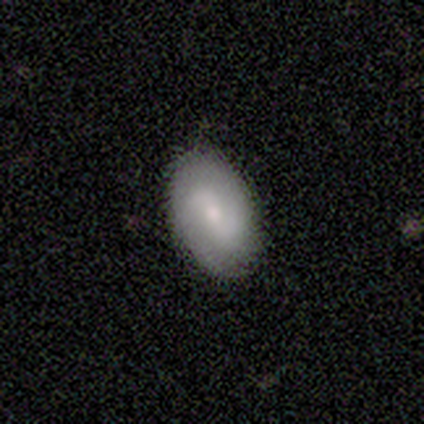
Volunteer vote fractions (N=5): Overall: smooth (60%; featured or disk 40%). How rounded: in between (100%). Merging: none (80%).